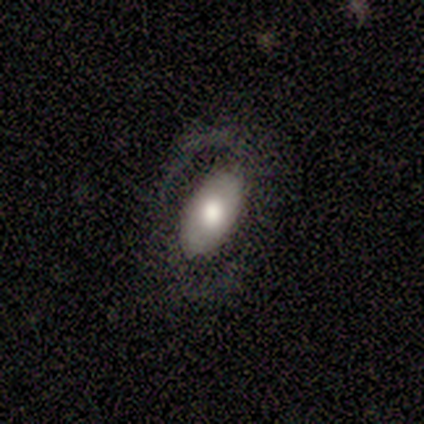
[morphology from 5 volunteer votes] This is clearly a featured or disk galaxy (100%). It is clearly not viewed edge-on (100%). Bar: clearly weak (80%). Spiral arm pattern: clearly yes (100%). Spiral arm count: likely 2 (60%). Spiral winding: likely medium (60%). Central bulge: likely moderate (60%). Merging: likely none (60%).